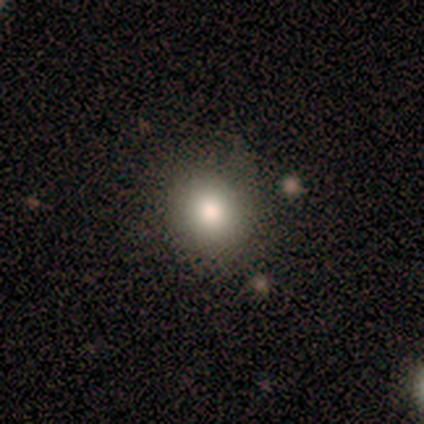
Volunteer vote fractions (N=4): This appears to be a smooth galaxy with no disk features (100%) that is round (75%). Merging: none (100%).